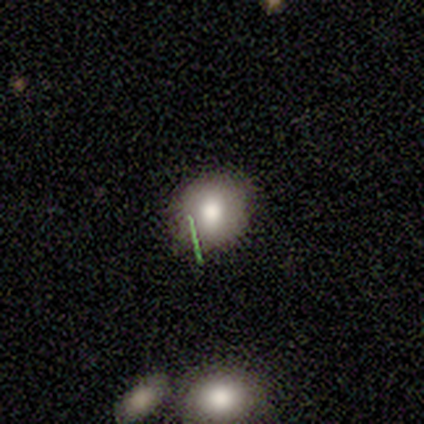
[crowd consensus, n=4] Overall: smooth (50%, tied with featured or disk). How rounded: round (50%, tied with in between). Merging: none (75%).